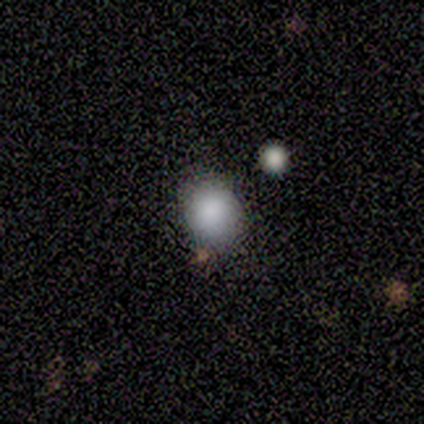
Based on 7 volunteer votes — This is clearly a smooth galaxy (86%). How rounded: clearly round (100%). Merging: clearly none (86%).